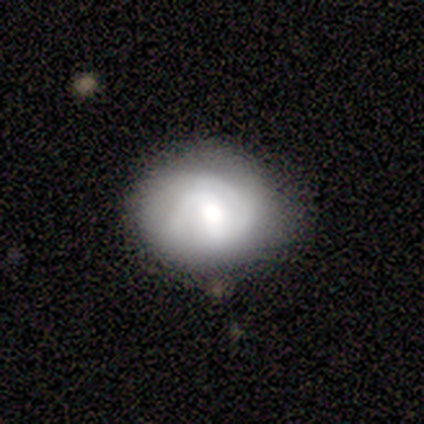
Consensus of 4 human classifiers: A featured or disk galaxy (100%) with a weak bar (50%, tied with no), 2 (67%) tight (100%) spiral arms (75%) and a moderate central bulge (75%). Merging: minor disturbance (75%).